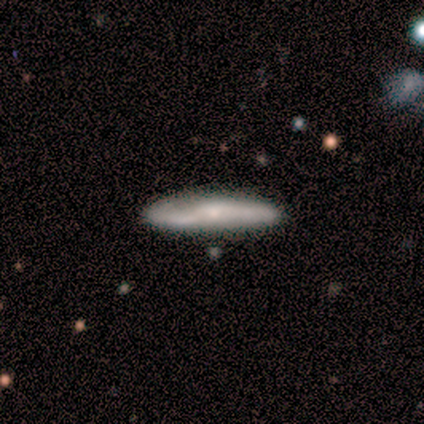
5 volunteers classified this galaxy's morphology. A featured or disk galaxy (80%) viewed edge-on (75%) with a rounded central bulge (67%). Merging: none (100%).